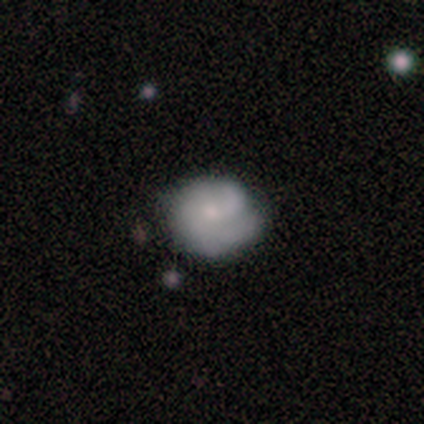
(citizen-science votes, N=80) Volunteers were most divided on "smooth or featured": smooth: 51%, featured or disk: 46%, star or artifact: 2%. Remaining: how rounded — round (78%); merging — none (40%).